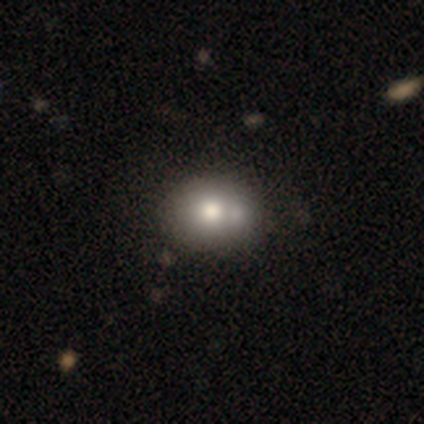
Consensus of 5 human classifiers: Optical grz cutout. It shows a smooth galaxy with no disk features (60%) that is in between round and cigar-shaped (67%). Merging: merger (100%).